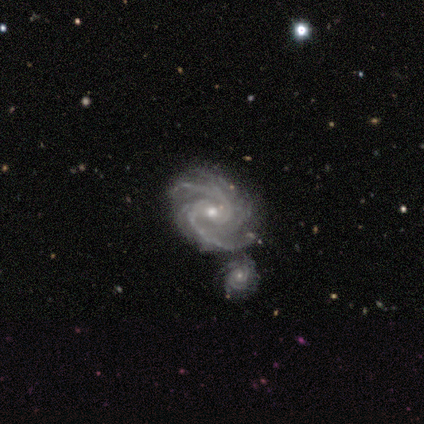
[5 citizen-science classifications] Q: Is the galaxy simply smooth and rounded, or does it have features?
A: featured or disk — 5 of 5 (100%).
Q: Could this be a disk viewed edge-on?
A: no — 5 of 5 (100%).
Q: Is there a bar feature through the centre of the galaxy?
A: weak — 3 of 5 (60%).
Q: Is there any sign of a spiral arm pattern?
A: yes — 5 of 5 (100%).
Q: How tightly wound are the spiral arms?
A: medium — 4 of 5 (80%).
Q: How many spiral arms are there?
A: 2 — 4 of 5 (80%).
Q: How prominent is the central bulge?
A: moderate — 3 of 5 (60%).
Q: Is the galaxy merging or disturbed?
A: merger — 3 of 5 (60%).